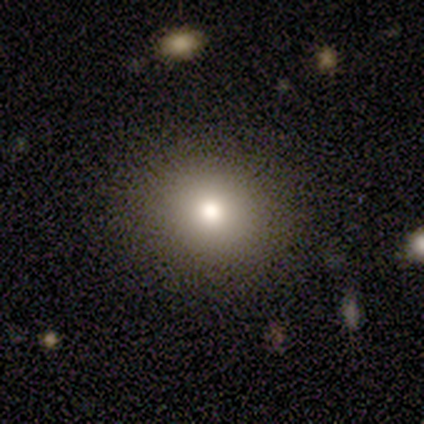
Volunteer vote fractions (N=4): A smooth galaxy with no disk features (100%) that is round (100%).

Vote fractions:
- Smooth or featured? smooth: 100% / featured or disk: 0% / star or artifact: 0%
- How rounded? round: 100% / in between: 0% / cigar-shaped: 0%
- Merging? none: 50% / minor disturbance: 25% / major disturbance: 25% / merger: 0%